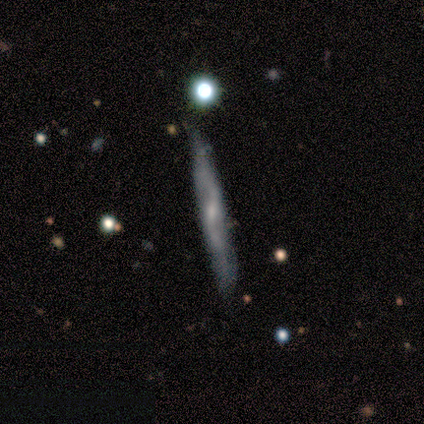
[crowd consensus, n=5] Smooth or featured: featured or disk — 80% (smooth — 20%)
Edge-on disk: yes — 75% (no — 25%)
Edge-on bulge: none — 67% (rounded — 33%)
Merging: none — 80% (minor disturbance — 20%)